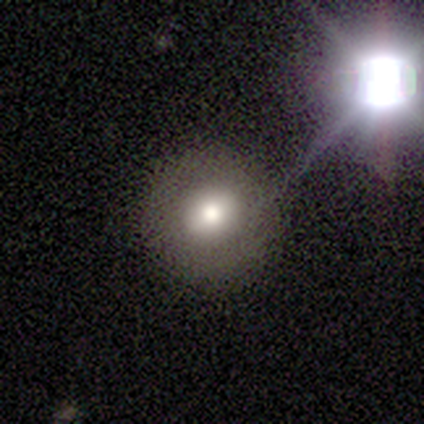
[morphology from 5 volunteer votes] This appears to be a smooth galaxy with no disk features (60%) that is round (100%). Merging: none (100%).